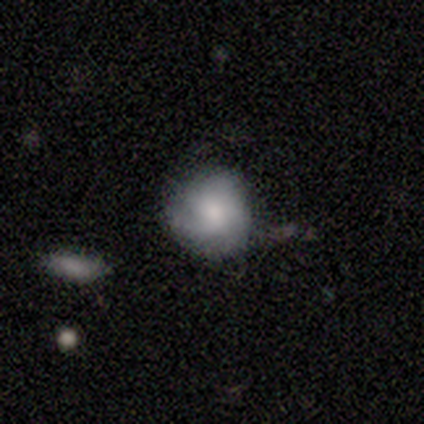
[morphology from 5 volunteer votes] Smooth or featured? 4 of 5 (80%) said smooth. How rounded? 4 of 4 (100%) said round. Merging? 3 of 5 (60%) said none.